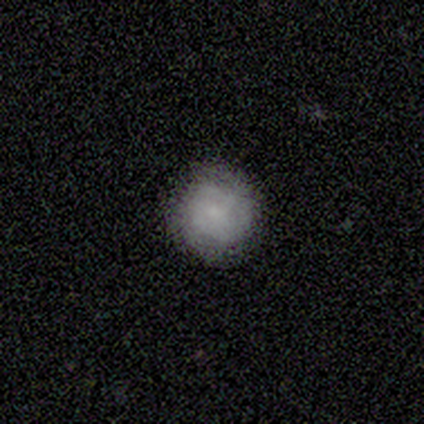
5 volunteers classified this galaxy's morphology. type=featured or disk (60%); edge-on=no (100%); bar=no (67%); spiral arms=yes (67%); winding=tight (50%, tied with medium); arm count=can't tell (100%); bulge=small (100%); merging=none (50%, tied with minor disturbance).